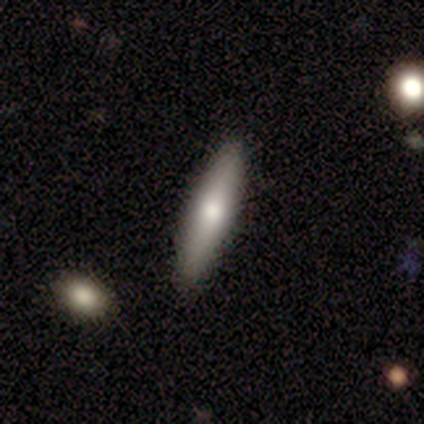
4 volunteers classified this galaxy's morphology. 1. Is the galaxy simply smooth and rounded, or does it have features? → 75% smooth, 25% featured or disk, 0% star or artifact.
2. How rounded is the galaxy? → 67% cigar-shaped, 33% in between, 0% round.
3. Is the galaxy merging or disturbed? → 100% none, 0% minor disturbance, 0% major disturbance, 0% merger.